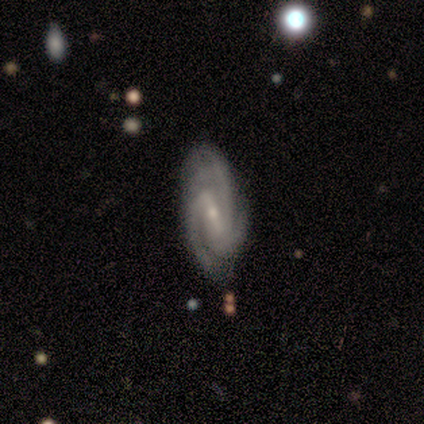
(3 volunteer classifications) featured or disk 100%, smooth 0%, star or artifact 0%. Down the decision tree: edge-on disk — no (100%); bar — weak (67%); spiral arms — yes (100%); spiral arm count — 2 (33%, tied with 3 and 4); spiral winding — tight (67%); bulge size — small (100%); merging — major disturbance (67%).